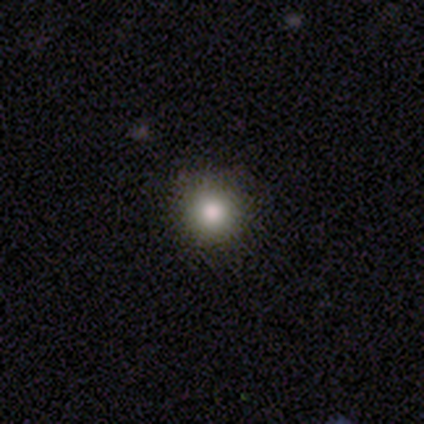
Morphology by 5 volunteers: A smooth galaxy with no disk features (60%) that is round (100%).

Vote fractions:
- Smooth or featured? smooth: 60% / star or artifact: 40% / featured or disk: 0%
- How rounded? round: 100% / in between: 0% / cigar-shaped: 0%
- Merging? none: 100% / minor disturbance: 0% / major disturbance: 0% / merger: 0%